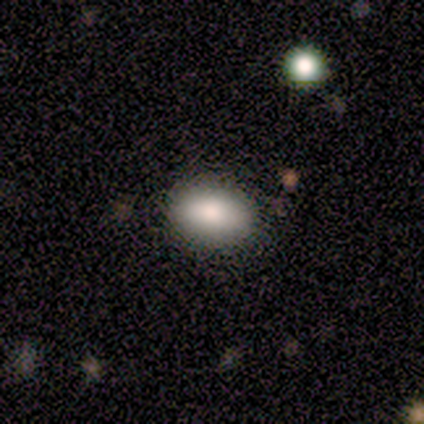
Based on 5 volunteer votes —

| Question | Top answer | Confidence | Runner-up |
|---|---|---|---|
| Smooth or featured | smooth | 80% | featured or disk (20%) |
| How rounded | in between | 100% | — |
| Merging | none | 100% | — |